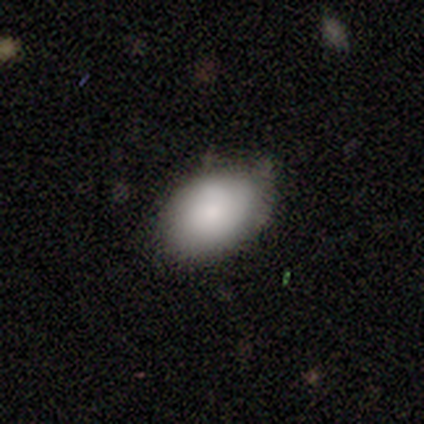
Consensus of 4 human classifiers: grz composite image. It shows a smooth galaxy with no disk features (100%) that is in between round and cigar-shaped (75%). Merging: none (100%).